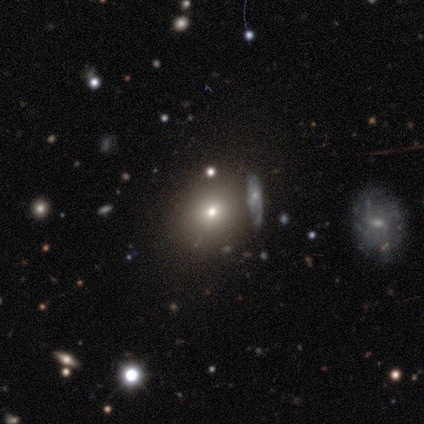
Q: Smooth or featured?
A: smooth (75%); runner-up: featured or disk (25%)
Q: How rounded?
A: in between (100%)
Q: Merging?
A: minor disturbance (50%); runner-up: none (25%)